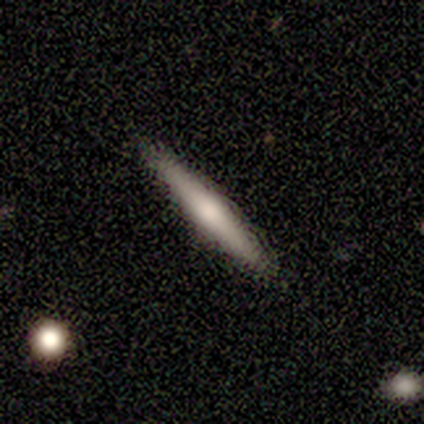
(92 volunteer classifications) Morphology: type=smooth (51%); roundness=cigar-shaped (100%); merging=none (88%).